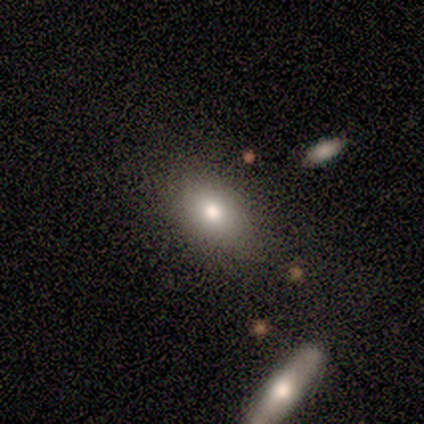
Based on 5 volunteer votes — Smooth or featured? smooth (80%)
How rounded? in between (75%)
Merging? none (80%)